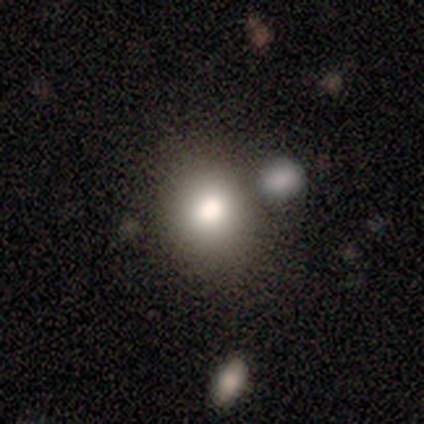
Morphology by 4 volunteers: This is likely a featured or disk galaxy (75%). It is clearly not viewed edge-on (100%). Bar: likely no (67%). Spiral arm pattern: clearly no (100%). Central bulge: likely large (67%). Merging: likely none (67%).